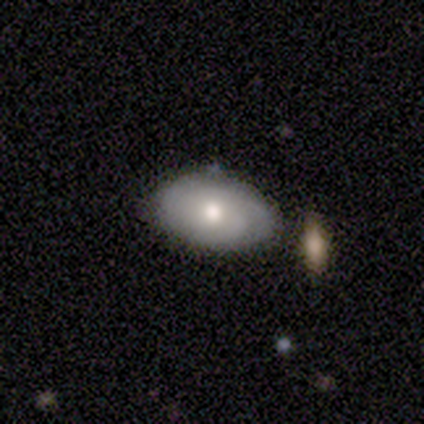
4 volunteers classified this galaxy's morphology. type=smooth (50%, tied with featured or disk); roundness=round (50%, tied with in between); merging=none (75%).